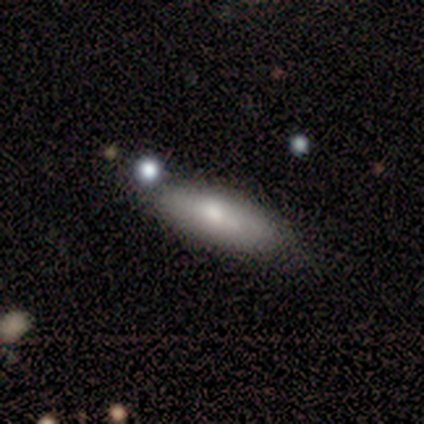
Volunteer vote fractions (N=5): A smooth galaxy with no disk features (40%, tied with featured or disk) that is in between round and cigar-shaped (100%). Merging: none (50%).